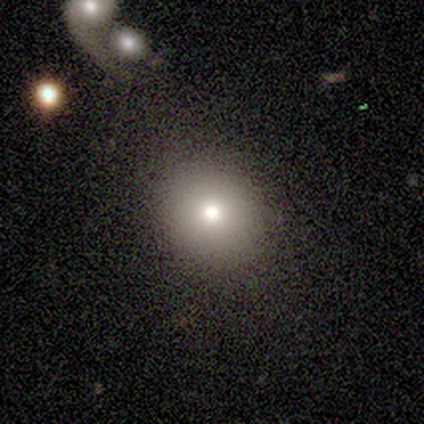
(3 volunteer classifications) Overall: smooth (67%; featured or disk 33%). How rounded: round (100%). Merging: none (67%; minor disturbance 33%).